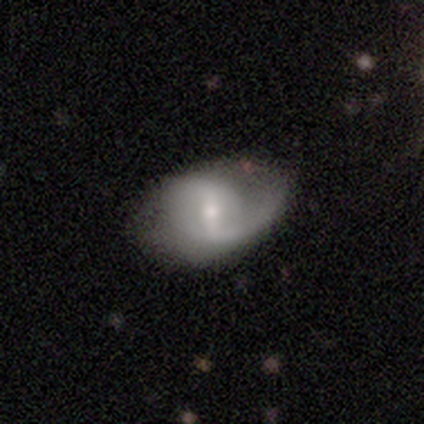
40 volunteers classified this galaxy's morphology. Smooth or featured? 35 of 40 (88%) said featured or disk. Edge-on disk? 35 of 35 (100%) said no. Bar? 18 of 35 (51%) said weak. Spiral arms? 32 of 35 (91%) said yes. Spiral winding? 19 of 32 (59%) said loose. Spiral arm count? 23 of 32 (72%) said 2. Bulge size? 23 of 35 (66%) said small. Merging? 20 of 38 (53%) said none.